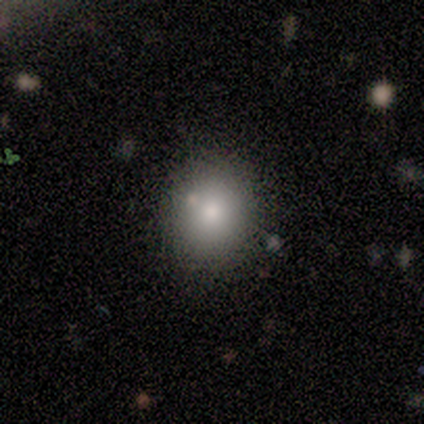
This is likely a smooth galaxy (60%). How rounded: likely in between (67%). Merging: clearly none (80%).